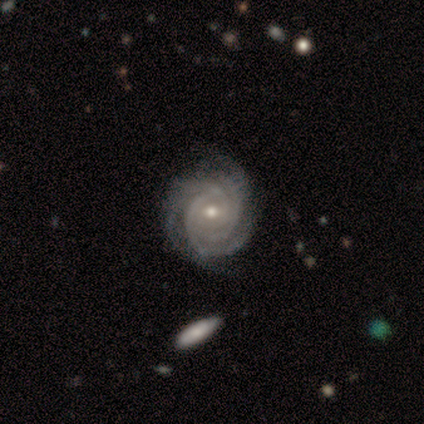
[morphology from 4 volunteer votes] Smooth or featured? 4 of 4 (100%) said featured or disk. Edge-on disk? 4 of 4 (100%) said no. Bar? 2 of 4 (50%, tied with no) said weak. Spiral arms? 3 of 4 (75%) said yes. Spiral winding? 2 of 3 (67%) said tight. Spiral arm count? 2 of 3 (67%) said 4. Bulge size? 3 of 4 (75%) said small. Merging? 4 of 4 (100%) said none.